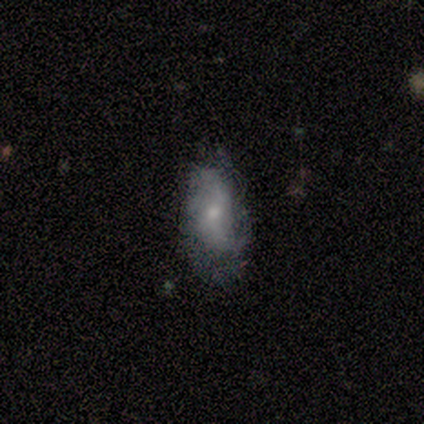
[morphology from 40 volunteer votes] featured or disk 57%, smooth 38%, star or artifact 5%. Down the decision tree: edge-on disk — no (96%); bar — no (64%); spiral arms — yes (77%); spiral arm count — 2 (59%); spiral winding — loose (53%); bulge size — moderate (50%, tied with small); merging — none (61%).